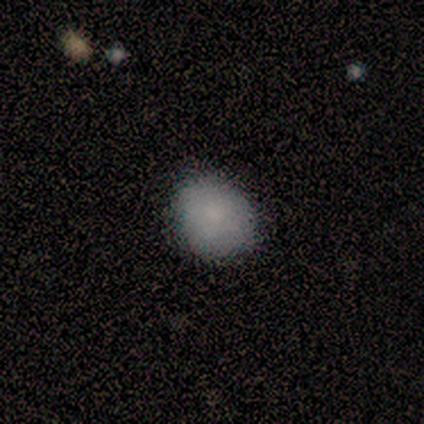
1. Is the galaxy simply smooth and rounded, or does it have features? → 100% smooth, 0% featured or disk, 0% star or artifact.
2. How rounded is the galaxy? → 56% round, 44% in between, 0% cigar-shaped.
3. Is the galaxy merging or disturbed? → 56% none, 44% minor disturbance, 0% major disturbance, 0% merger.